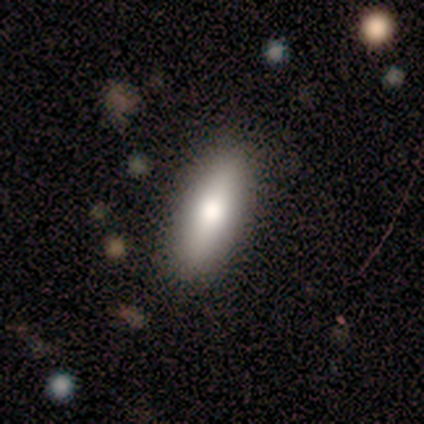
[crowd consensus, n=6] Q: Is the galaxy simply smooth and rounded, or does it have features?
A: smooth — 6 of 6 (100%).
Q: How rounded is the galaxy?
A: cigar-shaped — 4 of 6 (67%).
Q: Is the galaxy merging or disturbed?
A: none — 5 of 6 (83%).